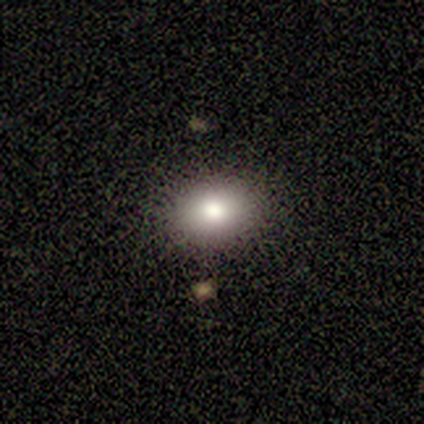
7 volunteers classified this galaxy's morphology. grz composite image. It shows a smooth galaxy with no disk features (86%) that is round (83%). Merging: none (86%).